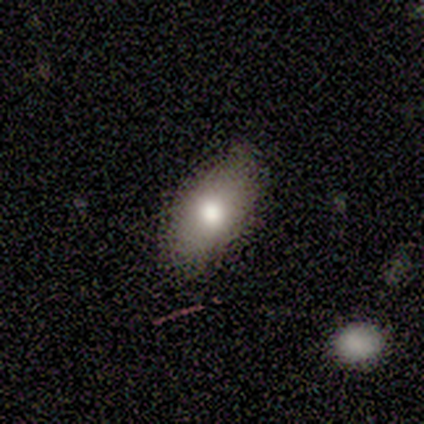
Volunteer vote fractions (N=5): Smooth or featured?
  - featured or disk: 60% *
  - smooth: 40%
  - star or artifact: 0%
Edge-on disk?
  - no: 67% *
  - yes: 33%
Bar?
  - no: 100% *
  - strong: 0%
  - weak: 0%
Spiral arms?
  - no: 100% *
  - yes: 0%
Bulge size?
  - moderate: 100% *
  - dominant: 0%
  - large: 0%
  - small: 0%
  - none: 0%
Merging?
  - none: 60% *
  - minor disturbance: 20%
  - merger: 20%
  - major disturbance: 0%